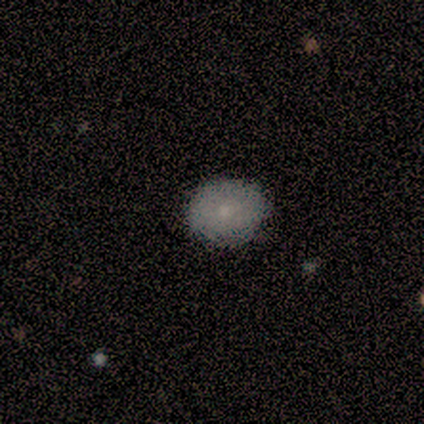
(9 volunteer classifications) A smooth galaxy with no disk features (78%) that is round (57%). Merging: none (89%).